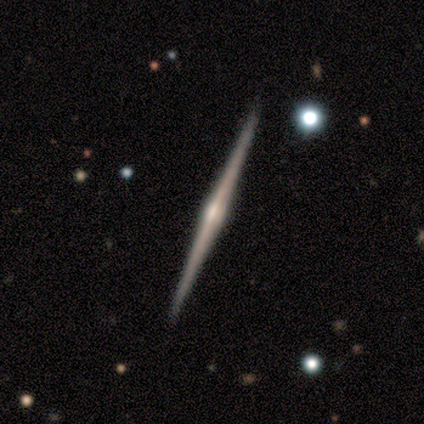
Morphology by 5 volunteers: smooth_or_featured: featured or disk (p=1.00)
disk_edge_on: yes (p=1.00)
edge_on_bulge: rounded (p=1.00)
merging: none (p=1.00)